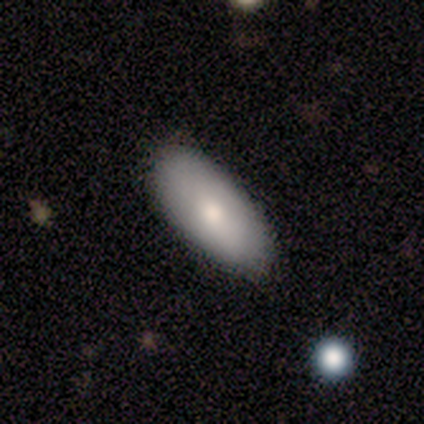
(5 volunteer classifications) Volunteers were most divided on "how rounded": in between: 80%, cigar-shaped: 20%, round: 0%. More confident: smooth or featured — smooth (100%); merging — none (100%).